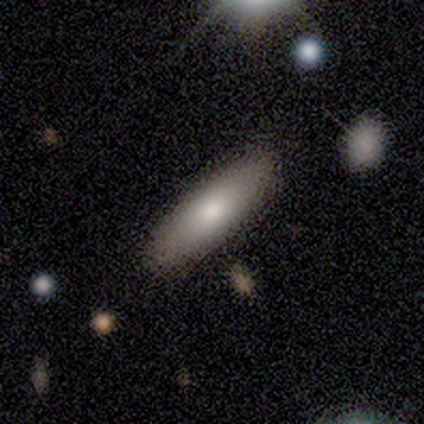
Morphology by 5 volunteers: Smooth or featured? 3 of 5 (60%) said smooth. How rounded? 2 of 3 (67%) said cigar-shaped. Merging? 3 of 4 (75%) said none.